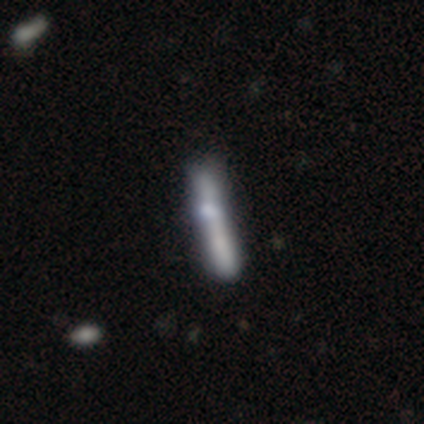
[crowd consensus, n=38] This is possibly a smooth galaxy (55%). How rounded: clearly cigar-shaped (90%). Merging: marginally none (44%).